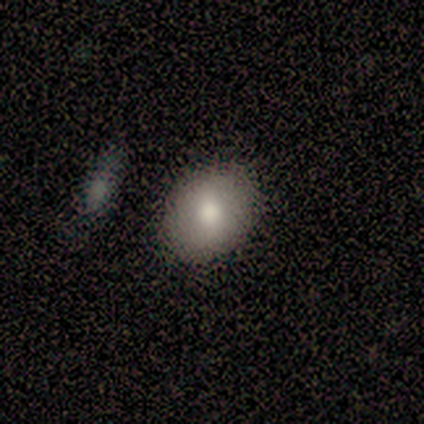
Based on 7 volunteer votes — smooth 71%, star or artifact 29%, featured or disk 0%. Down the decision tree: how rounded — in between (100%); merging — none (80%).